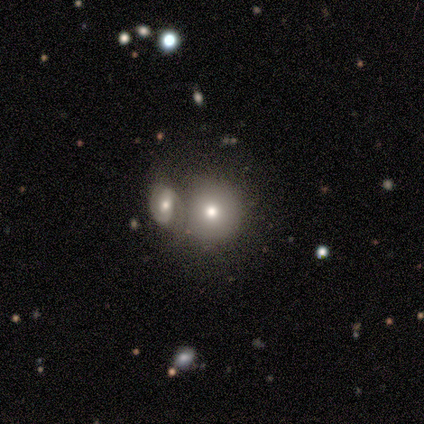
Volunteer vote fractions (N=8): Smooth or featured? smooth (75%)
How rounded? round (100%)
Merging? merger (71%)